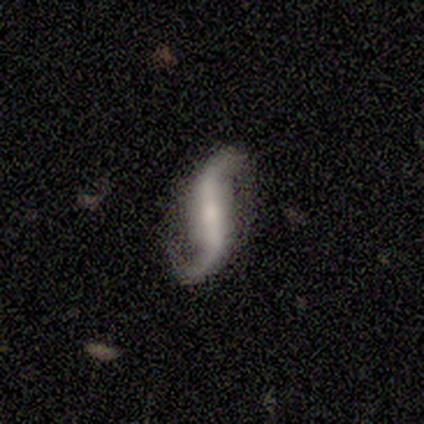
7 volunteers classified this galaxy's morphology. Smooth or featured?
  - featured or disk: 100% *
  - smooth: 0%
  - star or artifact: 0%
Edge-on disk?
  - no: 86% *
  - yes: 14%
Bar?
  - strong: 67% *
  - weak: 17%
  - no: 17%
Spiral arms?
  - yes: 83% *
  - no: 17%
Spiral winding?
  - loose: 60% *
  - medium: 40%
  - tight: 0%
Spiral arm count?
  - 2: 100% *
  - 1: 0%
  - 3: 0%
  - 4: 0%
  - more than 4: 0%
  - can't tell: 0%
Bulge size?
  - small: 67% *
  - large: 17%
  - none: 17%
  - dominant: 0%
  - moderate: 0%
Merging?
  - none: 71% *
  - minor disturbance: 14%
  - major disturbance: 14%
  - merger: 0%